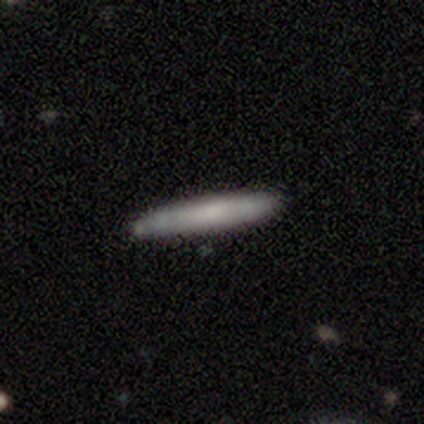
Smooth or featured?
  - smooth: 68% *
  - featured or disk: 30%
  - star or artifact: 2%
How rounded?
  - cigar-shaped: 96% *
  - in between: 4%
  - round: 0%
Merging?
  - none: 77% *
  - minor disturbance: 13%
  - merger: 8%
  - major disturbance: 3%